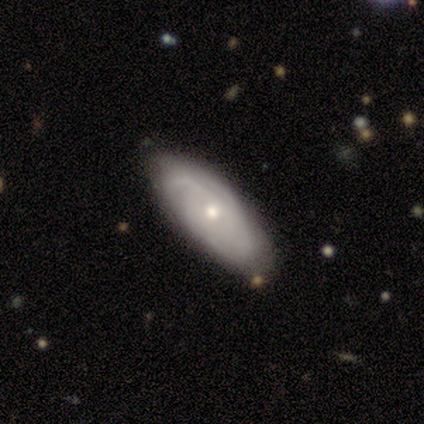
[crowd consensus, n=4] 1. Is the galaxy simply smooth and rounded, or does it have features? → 75% featured or disk, 25% smooth, 0% star or artifact.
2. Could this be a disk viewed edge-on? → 67% no, 33% yes.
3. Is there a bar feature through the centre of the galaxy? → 100% no, 0% strong, 0% weak.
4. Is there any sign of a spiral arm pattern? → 100% yes, 0% no.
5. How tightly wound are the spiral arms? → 100% medium, 0% tight, 0% loose.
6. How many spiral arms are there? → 50% 2 (tied), 50% can't tell (tied), 0% 1, 0% 3, 0% 4, 0% more than 4.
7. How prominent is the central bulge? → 100% small, 0% dominant, 0% large, 0% moderate, 0% none.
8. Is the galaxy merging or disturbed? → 75% none, 25% minor disturbance, 0% major disturbance, 0% merger.